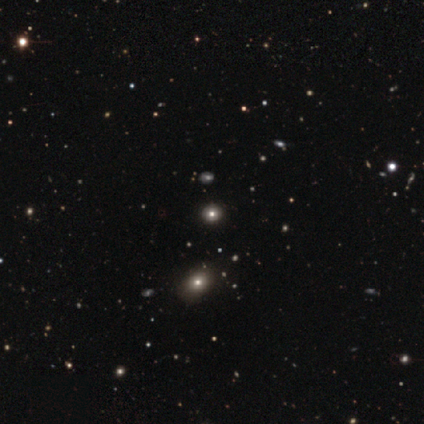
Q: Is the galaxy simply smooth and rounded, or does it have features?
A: star or artifact — 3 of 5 (60%).